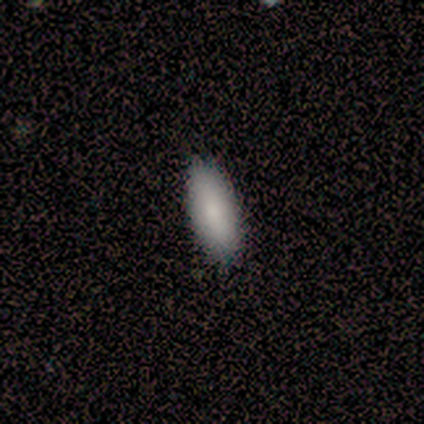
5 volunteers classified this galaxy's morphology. smooth 80%, featured or disk 20%, star or artifact 0%. Down the decision tree: how rounded — in between (50%, tied with cigar-shaped); merging — none (100%).